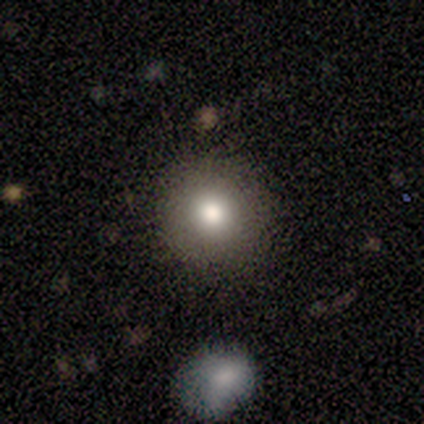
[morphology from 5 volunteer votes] A smooth galaxy with no disk features (100%) that is round (100%).

Vote fractions:
- Smooth or featured? smooth: 100% / featured or disk: 0% / star or artifact: 0%
- How rounded? round: 100% / in between: 0% / cigar-shaped: 0%
- Merging? none: 80% / minor disturbance: 20% / major disturbance: 0% / merger: 0%